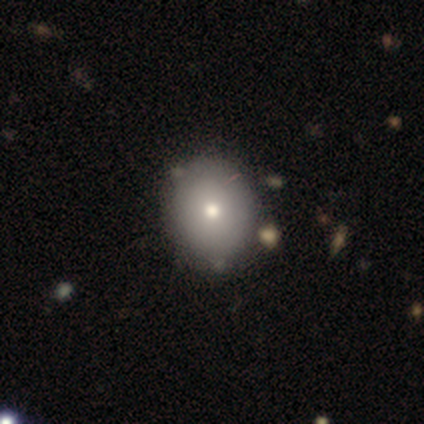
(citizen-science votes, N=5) A smooth galaxy with no disk features (100%) that is in between round and cigar-shaped (80%). Merging: none (100%).